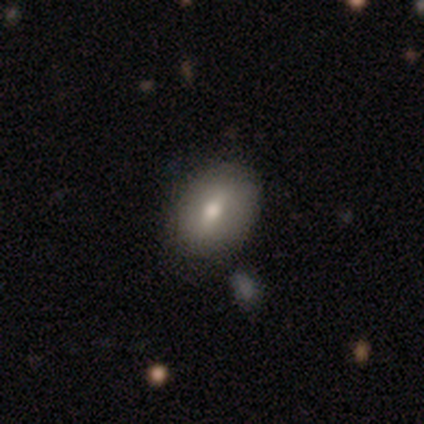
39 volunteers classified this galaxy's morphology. Smooth or featured?
  - smooth: 64% *
  - featured or disk: 26%
  - star or artifact: 10%
How rounded?
  - in between: 84% *
  - round: 12%
  - cigar-shaped: 4%
Merging?
  - none: 57% *
  - minor disturbance: 9%
  - merger: 9%
  - major disturbance: 3%